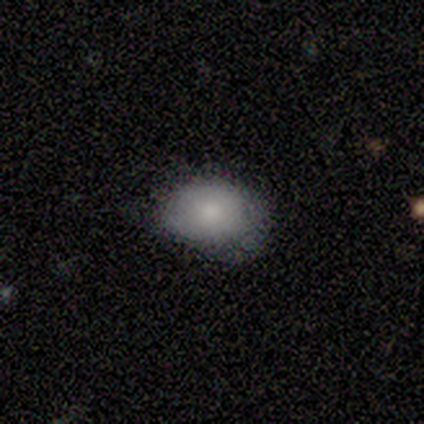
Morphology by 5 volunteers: A smooth galaxy with no disk features (100%) that is round (60%).

Vote fractions:
- Smooth or featured? smooth: 100% / featured or disk: 0% / star or artifact: 0%
- How rounded? round: 60% / in between: 40% / cigar-shaped: 0%
- Merging? none: 60% / minor disturbance: 40% / major disturbance: 0% / merger: 0%